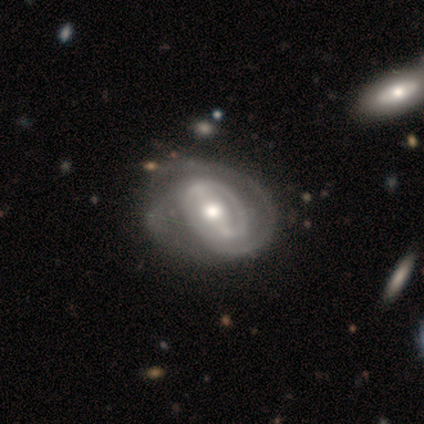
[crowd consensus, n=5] smooth_or_featured: featured or disk (p=1.00)
disk_edge_on: no (p=1.00)
bar: strong (p=0.40) [tied with: weak p=0.40]
has_spiral_arms: yes (p=1.00)
spiral_winding: tight (p=0.80) [alt: medium p=0.20]
spiral_arm_count: 2 (p=0.80) [alt: 1 p=0.20]
bulge_size: moderate (p=0.60) [alt: large p=0.20]
merging: none (p=0.40) [tied with: minor disturbance p=0.40]